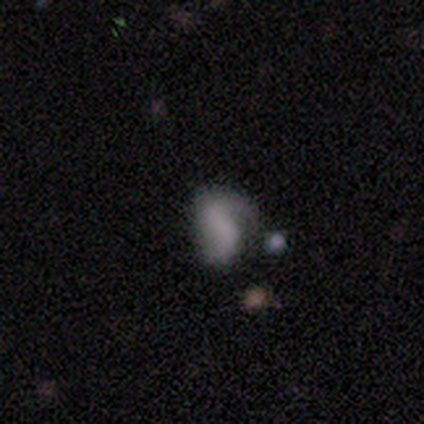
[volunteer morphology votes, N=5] This is likely a smooth galaxy (60%). How rounded: clearly in between (100%). Merging: marginally none (40%, tied with minor disturbance).